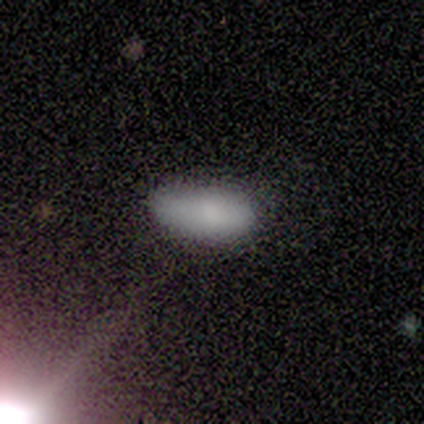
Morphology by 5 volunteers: A smooth galaxy with no disk features (80%) that is in between round and cigar-shaped (100%). Merging: none (50%, tied with minor disturbance).